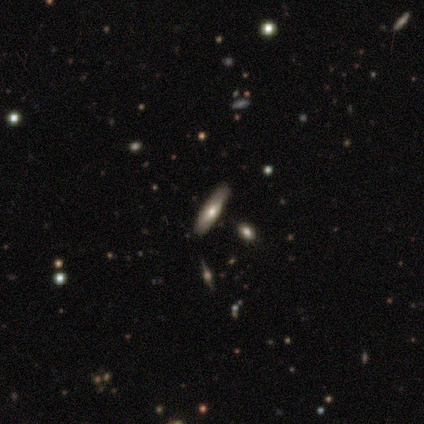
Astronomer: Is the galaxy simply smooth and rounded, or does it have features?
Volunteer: smooth — 83%.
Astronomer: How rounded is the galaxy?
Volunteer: cigar-shaped — 80%.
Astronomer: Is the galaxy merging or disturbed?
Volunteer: none — 83%.